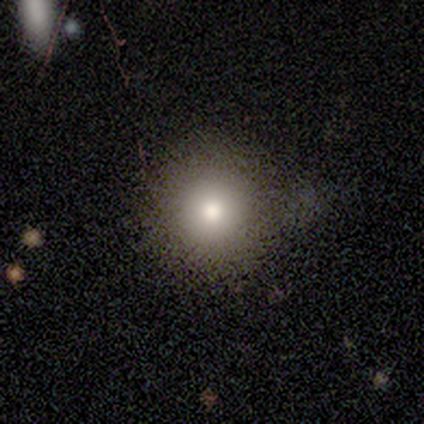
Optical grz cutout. It shows a smooth galaxy with no disk features (88%) that is round (86%). Merging: none (62%).